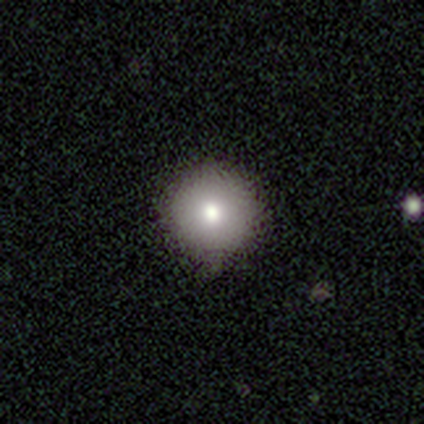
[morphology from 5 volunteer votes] Smooth or featured? 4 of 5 (80%) said smooth. How rounded? 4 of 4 (100%) said round. Merging? 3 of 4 (75%) said none.